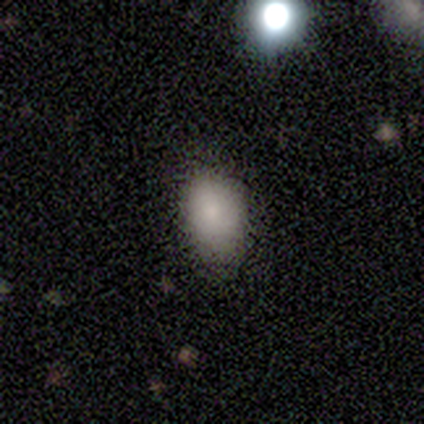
smooth-or-featured: smooth: 80% | star or artifact: 20% | featured or disk: 0%
  how-rounded: in between: 75% | round: 25% | cigar-shaped: 0%
  merging: none: 50% (tied) | minor disturbance: 50% (tied) | major disturbance: 0% | merger: 0%